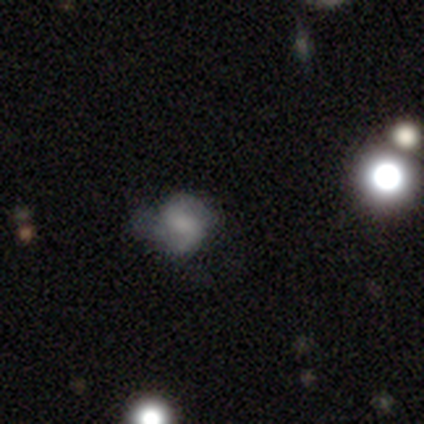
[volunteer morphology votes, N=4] Overall: featured or disk (75%). Edge-on disk: no (100%). Bar: no (67%; weak 33%). Spiral arms: yes (100%). Spiral arm count: 2 (100%). Spiral winding: tight (67%; loose 33%). Bulge size: none (67%; moderate 33%). Merging: none (100%).